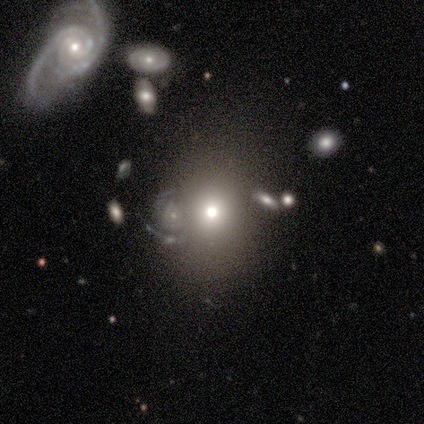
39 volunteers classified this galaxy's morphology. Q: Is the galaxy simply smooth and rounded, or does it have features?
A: smooth — 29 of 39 (74%).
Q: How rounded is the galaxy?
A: round — 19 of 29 (66%).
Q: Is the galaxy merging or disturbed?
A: none — 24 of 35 (69%).